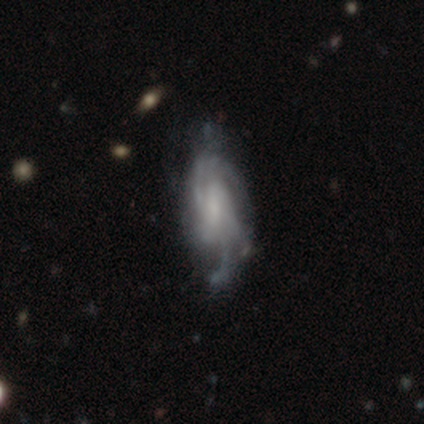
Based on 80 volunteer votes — Smooth or featured?
  - featured or disk: 85% *
  - smooth: 11%
  - star or artifact: 4%
Edge-on disk?
  - no: 93% *
  - yes: 7%
Bar?
  - no: 54% *
  - weak: 37%
  - strong: 10%
Spiral arms?
  - yes: 94% *
  - no: 6%
Spiral winding?
  - medium: 49% *
  - tight: 31%
  - loose: 20%
Spiral arm count?
  - can't tell: 37% *
  - 4: 27%
  - 2: 14%
  - 3: 14%
  - more than 4: 8%
  - 1: 0%
Bulge size?
  - small: 38% *
  - none: 35%
  - moderate: 21%
  - large: 5%
  - dominant: 2%
Merging?
  - none: 25% *
  - minor disturbance: 13%
  - major disturbance: 12%
  - merger: 5%